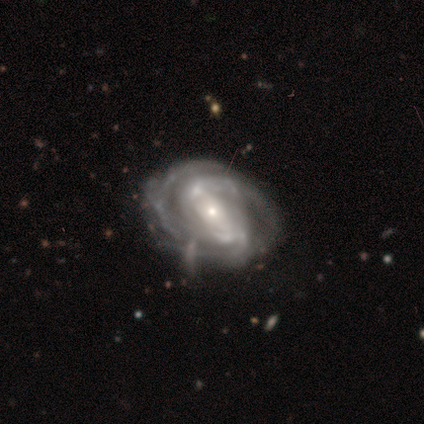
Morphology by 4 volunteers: This appears to be a featured or disk galaxy (75%) with a strong bar (33%, tied with weak and no), 2 (33%, tied with 3 and more than 4) tight (67%) spiral arms (100%) and a small central bulge (100%). Merging: none (50%, tied with minor disturbance).